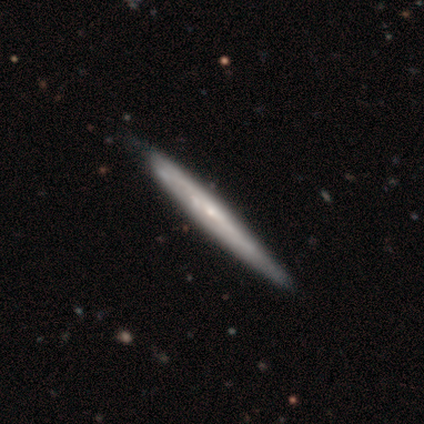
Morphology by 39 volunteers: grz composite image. It shows a featured or disk galaxy (69%) viewed edge-on (78%) with no central bulge (62%). Merging: none (55%).